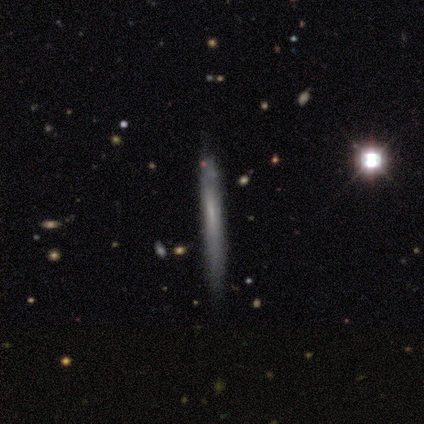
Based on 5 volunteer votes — This is clearly a smooth galaxy (80%). How rounded: clearly cigar-shaped (100%). Merging: clearly none (100%).